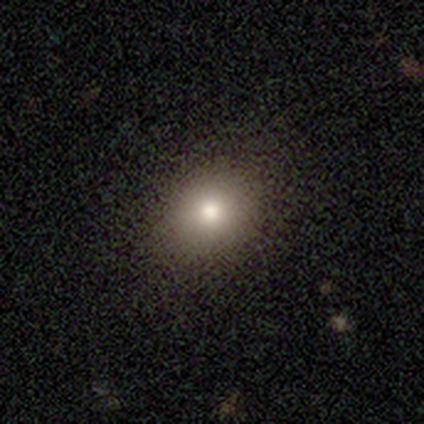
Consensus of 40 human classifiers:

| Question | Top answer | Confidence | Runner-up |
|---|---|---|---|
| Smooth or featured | smooth | 85% | featured or disk (10%) |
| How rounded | round | 62% | in between (38%) |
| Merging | none | 63% | minor disturbance (5%) |